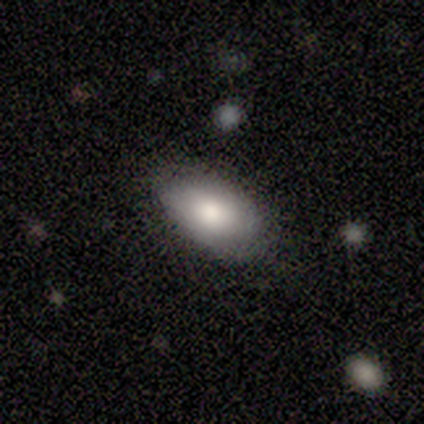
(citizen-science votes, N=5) A smooth galaxy with no disk features (100%) that is in between round and cigar-shaped (100%).

Vote fractions:
- Smooth or featured? smooth: 100% / featured or disk: 0% / star or artifact: 0%
- How rounded? in between: 100% / round: 0% / cigar-shaped: 0%
- Merging? minor disturbance: 60% / none: 40% / major disturbance: 0% / merger: 0%